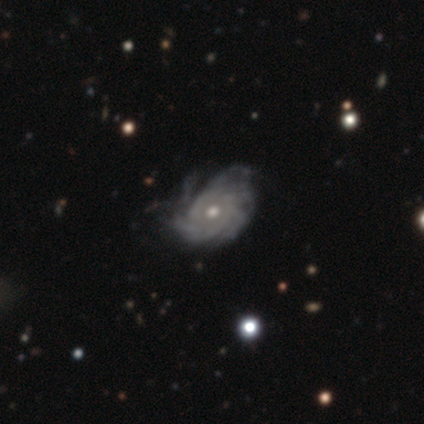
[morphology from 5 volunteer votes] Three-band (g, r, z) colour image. It shows a featured or disk galaxy (80%) with no bar (75%), medium (50%) spiral arms (100%) and a moderate central bulge (50%). Merging: none (50%).